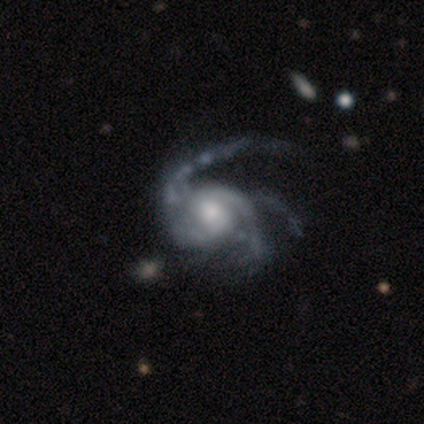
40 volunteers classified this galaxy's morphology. Smooth or featured? featured or disk (100%)
Edge-on disk? no (100%)
Bar? no (75%)
Spiral arms? yes (100%)
Spiral winding? medium (55%)
Spiral arm count? 3 (42%)
Bulge size? moderate (45%)
Merging? major disturbance (35%)